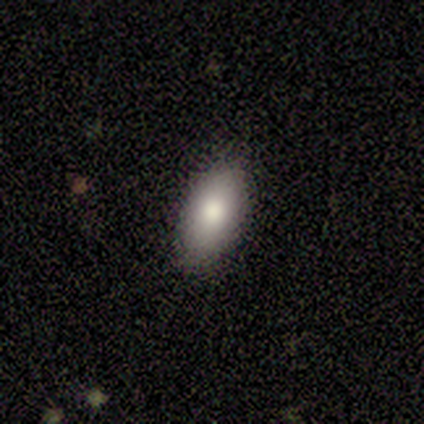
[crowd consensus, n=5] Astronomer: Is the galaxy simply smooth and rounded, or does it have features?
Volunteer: smooth — 100%.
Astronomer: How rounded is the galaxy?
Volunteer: in between — 100%.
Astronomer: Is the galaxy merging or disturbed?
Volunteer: none — 100%.